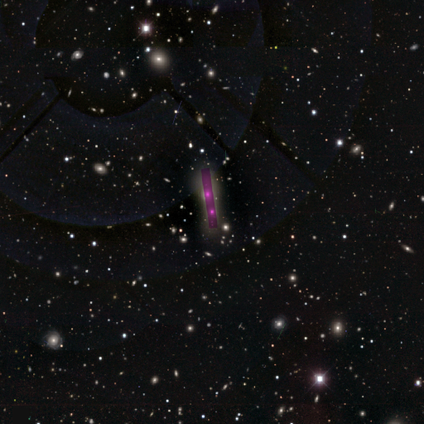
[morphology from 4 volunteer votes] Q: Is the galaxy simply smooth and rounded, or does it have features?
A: star or artifact — 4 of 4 (100%).